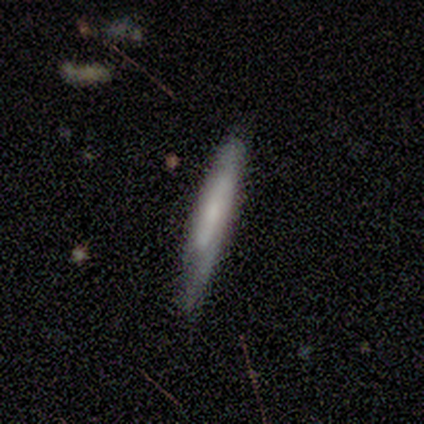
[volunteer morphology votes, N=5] smooth-or-featured: featured or disk: 60% | smooth: 40% | star or artifact: 0%
  disk-edge-on: yes: 67% | no: 33%
    edge-on-bulge: none: 100% | boxy: 0% | rounded: 0%
  merging: none: 40% (tied) | minor disturbance: 40% (tied) | merger: 20% | major disturbance: 0%